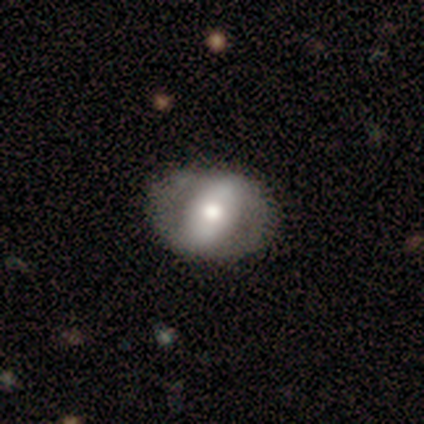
This appears to be a smooth galaxy with no disk features (50%, tied with featured or disk) that is round (50%, tied with in between). Merging: none (100%).